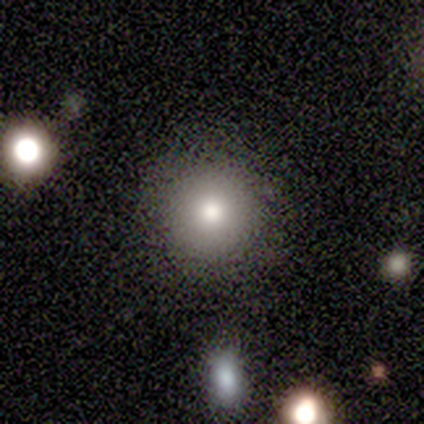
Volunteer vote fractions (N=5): This appears to be a smooth galaxy with no disk features (100%) that is round (100%). Merging: none (100%).